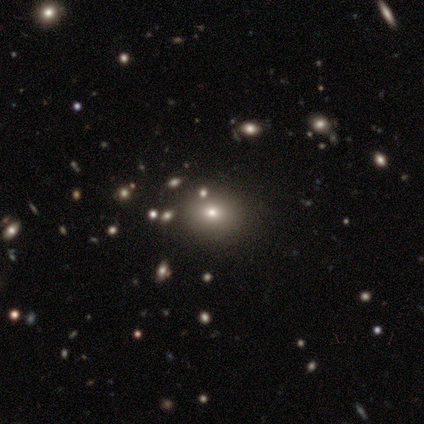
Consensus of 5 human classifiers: smooth 80%, star or artifact 20%, featured or disk 0%. Down the decision tree: how rounded — round (50%, tied with in between); merging — none (50%).